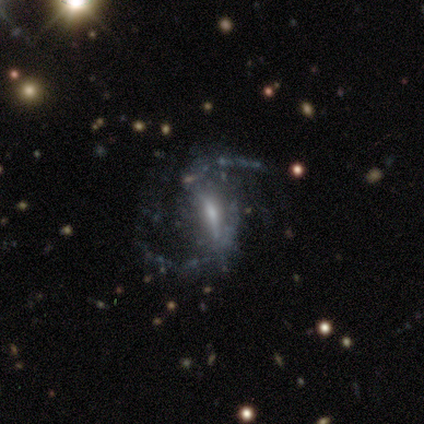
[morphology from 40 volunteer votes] Smooth or featured? 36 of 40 (90%) said featured or disk. Edge-on disk? 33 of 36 (92%) said no. Bar? 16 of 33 (48%) said strong. Spiral arms? 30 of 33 (91%) said yes. Spiral winding? 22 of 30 (73%) said loose. Spiral arm count? 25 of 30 (83%) said 2. Bulge size? 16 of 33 (48%) said moderate. Merging? 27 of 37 (73%) said none.